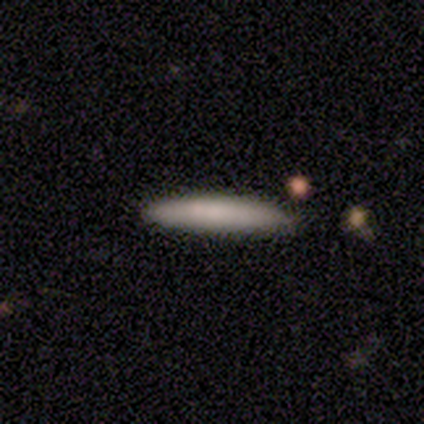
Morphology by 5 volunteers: smooth 60%, featured or disk 20%, star or artifact 20%. Down the decision tree: how rounded — cigar-shaped (100%); merging — none (100%).